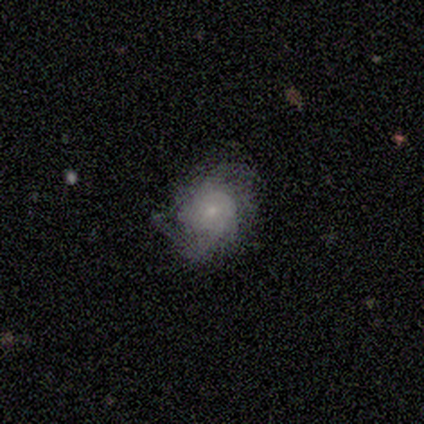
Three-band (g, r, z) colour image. It shows a featured or disk galaxy (75%) with no bar (67%), 2 (100%) medium (100%) spiral arms (100%) and a moderate central bulge (33%, tied with small and none). Merging: none (100%).